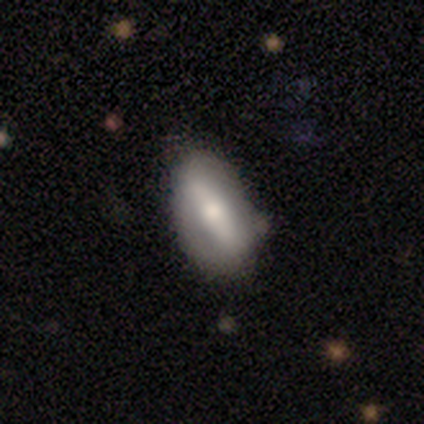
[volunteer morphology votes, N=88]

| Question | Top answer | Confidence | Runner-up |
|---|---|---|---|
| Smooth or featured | smooth | 52% | featured or disk (41%) |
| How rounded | in between | 89% | cigar-shaped (9%) |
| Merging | none | 61% | minor disturbance (34%) |